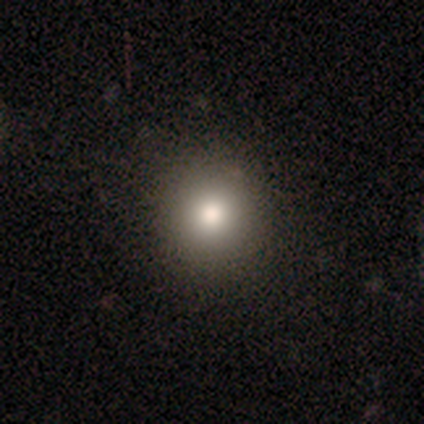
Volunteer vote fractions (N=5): Overall: smooth (100%). How rounded: round (100%). Merging: none (100%).